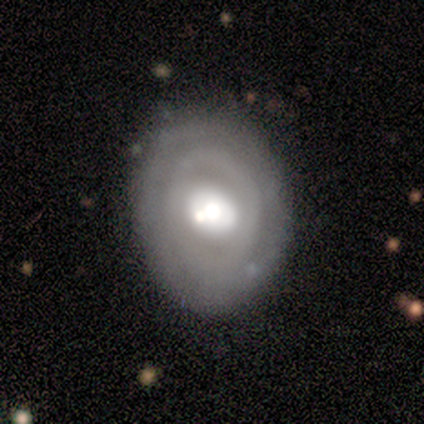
Q: Smooth or featured?
A: featured or disk (80%); runner-up: smooth (20%)
Q: Edge-on disk?
A: no (100%)
Q: Bar?
A: no (100%)
Q: Spiral arms?
A: no (100%)
Q: Bulge size?
A: moderate (100%)
Q: Merging?
A: none (100%)